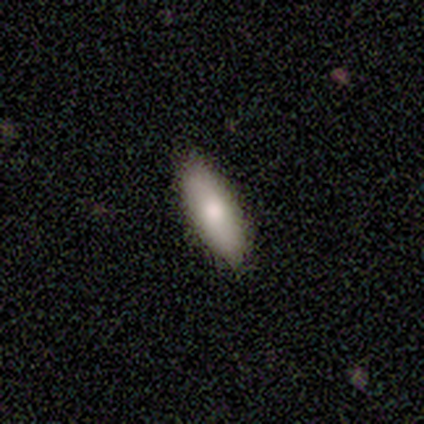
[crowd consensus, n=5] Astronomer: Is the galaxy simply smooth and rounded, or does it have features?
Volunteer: star or artifact — 60% (runner-up: smooth, 40%).